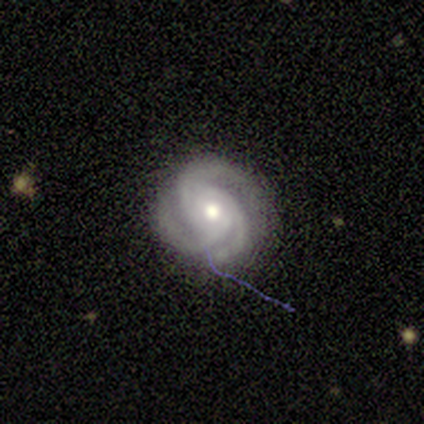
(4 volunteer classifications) This appears to be a featured or disk galaxy (75%) with no bar (67%), 3 (100%) tight (67%) spiral arms (100%) and a moderate central bulge (67%). Merging: none (75%).